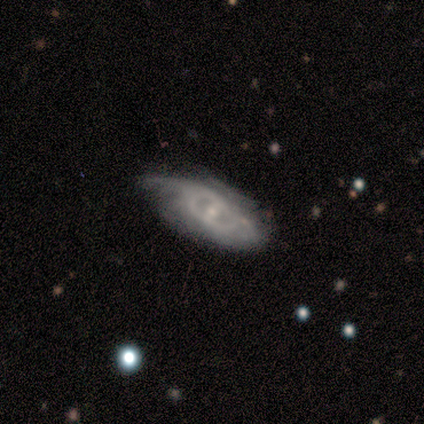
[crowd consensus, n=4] A featured or disk galaxy (100%) with a weak bar (50%, tied with no), 2 (50%, tied with can't tell) medium (50%, tied with loose) spiral arms (50%, tied with no) and a moderate central bulge (50%, tied with small).

Vote fractions:
- Smooth or featured? featured or disk: 100% / smooth: 0% / star or artifact: 0%
- Edge-on disk? no: 100% / yes: 0%
- Bar? weak: 50% (tied) / no: 50% (tied) / strong: 0%
- Spiral arms? yes: 50% (tied) / no: 50% (tied)
- Spiral winding? medium: 50% (tied) / loose: 50% (tied) / tight: 0%
- Spiral arm count? 2: 50% (tied) / can't tell: 50% (tied) / 1: 0% / 3: 0% / 4: 0% / more than 4: 0%
- Bulge size? moderate: 50% (tied) / small: 50% (tied) / dominant: 0% / large: 0% / none: 0%
- Merging? minor disturbance: 50% / none: 25% / merger: 25% / major disturbance: 0%